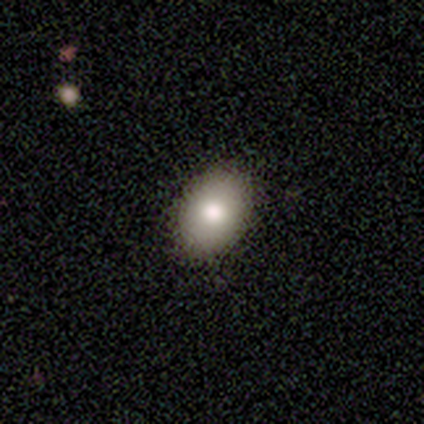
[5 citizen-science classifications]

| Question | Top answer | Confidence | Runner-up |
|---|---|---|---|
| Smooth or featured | smooth | 80% | featured or disk (20%) |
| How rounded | round | 50% | tied: in between (50%) |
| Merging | none | 100% | — |